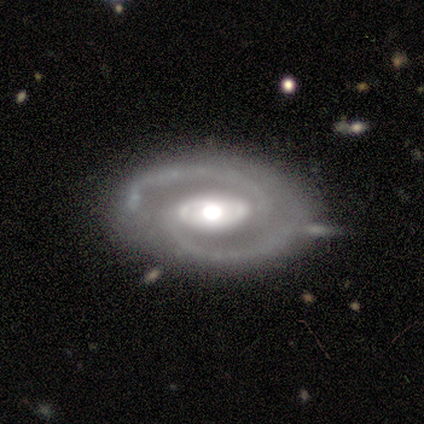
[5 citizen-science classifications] smooth-or-featured: featured or disk: 60% | smooth: 40% | star or artifact: 0%
  disk-edge-on: no: 100% | yes: 0%
    bar: strong: 67% | weak: 33% | no: 0%
    has-spiral-arms: yes: 100% | no: 0%
      spiral-winding: medium: 67% | loose: 33% | tight: 0%
      spiral-arm-count: 2: 100% | 1: 0% | 3: 0% | 4: 0% | more than 4: 0% | can't tell: 0%
    bulge-size: moderate: 67% | large: 33% | dominant: 0% | small: 0% | none: 0%
  merging: minor disturbance: 60% | none: 40% | major disturbance: 0% | merger: 0%